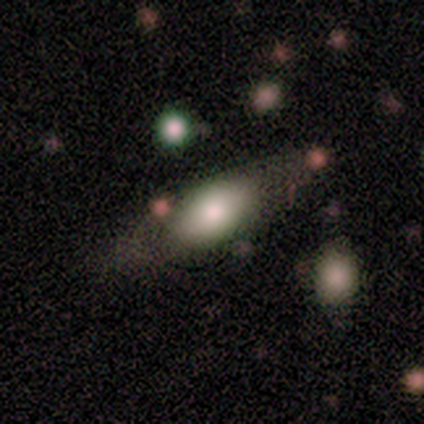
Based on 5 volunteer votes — A smooth galaxy with no disk features (60%) that is cigar-shaped (67%).

Vote fractions:
- Smooth or featured? smooth: 60% / featured or disk: 40% / star or artifact: 0%
- How rounded? cigar-shaped: 67% / in between: 33% / round: 0%
- Merging? none: 40% (tied) / minor disturbance: 40% (tied) / merger: 20% / major disturbance: 0%